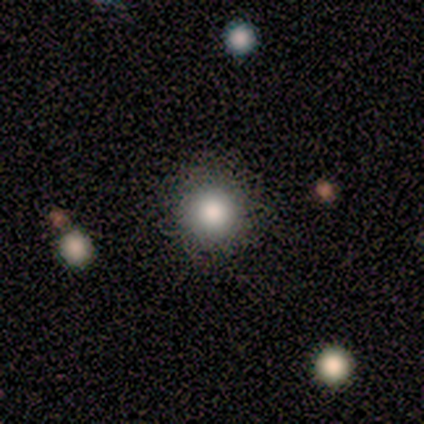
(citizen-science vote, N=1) A smooth galaxy with no disk features (100%) that is round (100%).

Vote fractions:
- Smooth or featured? smooth: 100% / featured or disk: 0% / star or artifact: 0%
- How rounded? round: 100% / in between: 0% / cigar-shaped: 0%
- Merging? none: 100% / minor disturbance: 0% / major disturbance: 0% / merger: 0%